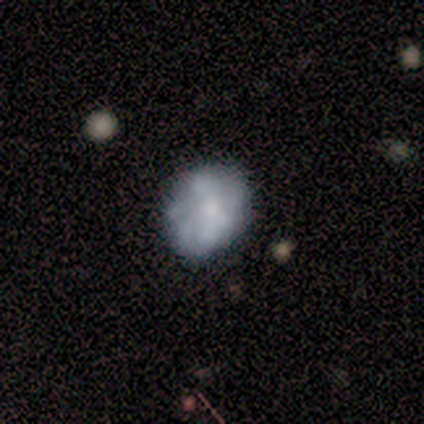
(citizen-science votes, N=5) Smooth or featured? 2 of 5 (40%, tied with featured or disk) said smooth. How rounded? 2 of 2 (100%) said in between. Merging? 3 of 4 (75%) said none.